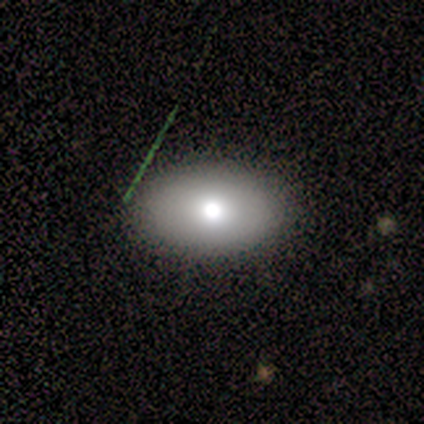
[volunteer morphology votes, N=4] smooth 100%, featured or disk 0%, star or artifact 0%. Down the decision tree: how rounded — in between (100%); merging — none (75%).